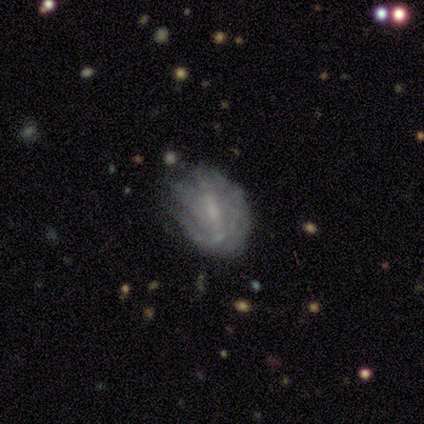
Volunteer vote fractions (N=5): smooth_or_featured: smooth (p=0.60) [alt: featured or disk p=0.40]
how_rounded: round (p=0.33) [tied with: in between p=0.33, cigar-shaped p=0.33]
merging: none (p=0.60) [alt: minor disturbance p=0.20]